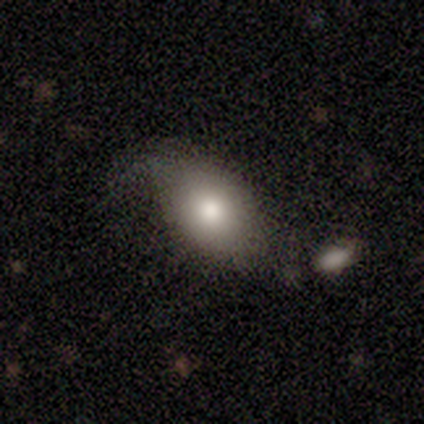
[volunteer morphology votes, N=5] Q: Smooth or featured?
A: smooth (80%); runner-up: featured or disk (20%)
Q: How rounded?
A: in between (75%); runner-up: round (25%)
Q: Merging?
A: minor disturbance (80%); runner-up: none (20%)